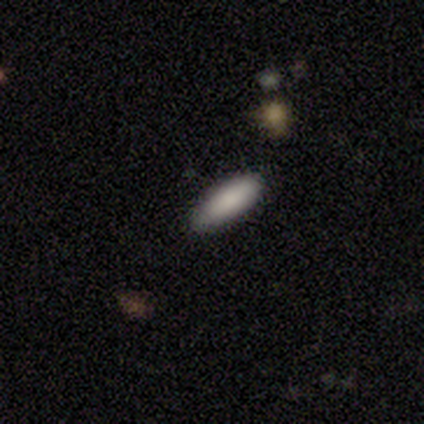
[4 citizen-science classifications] Consensus on every question: smooth or featured — smooth (100%); how rounded — in between (100%); merging — none (100%).